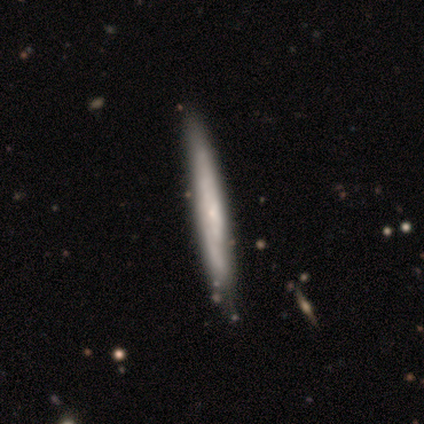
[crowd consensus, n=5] Q: Smooth or featured?
A: featured or disk (60%); runner-up: smooth (40%)
Q: Edge-on disk?
A: yes (67%); runner-up: no (33%)
Q: Edge-on bulge?
A: none (50%); tied with: rounded (50%)
Q: Merging?
A: none (80%); runner-up: minor disturbance (20%)